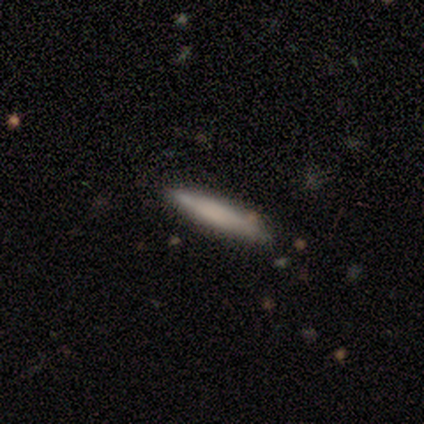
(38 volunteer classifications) Overall: smooth (66%; featured or disk 29%). How rounded: cigar-shaped (96%). Merging: none (86%).